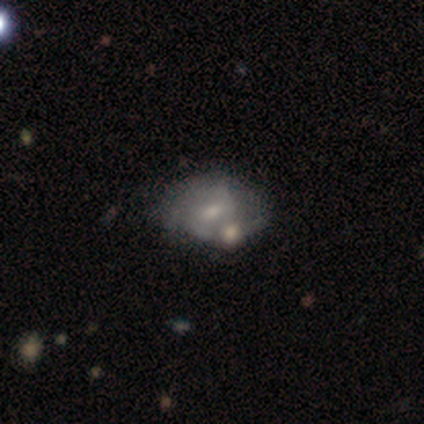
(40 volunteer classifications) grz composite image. It shows a featured or disk galaxy (62%) with a weak bar (56%), 2 (75%) medium (56%) spiral arms (64%) and a moderate central bulge (48%, tied with small). Merging: none (30%, tied with minor disturbance and merger).